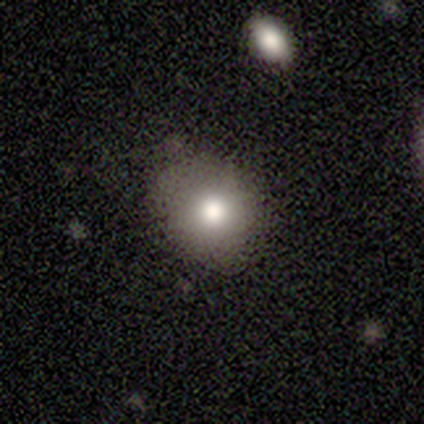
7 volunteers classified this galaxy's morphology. This appears to be a smooth galaxy with no disk features (100%) that is in between round and cigar-shaped (57%). Merging: none (86%).